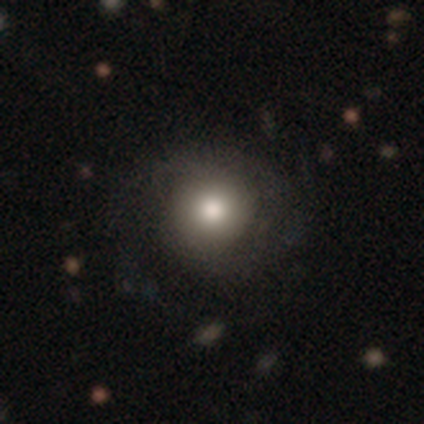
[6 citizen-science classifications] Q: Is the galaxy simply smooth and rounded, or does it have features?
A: smooth — 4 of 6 (67%).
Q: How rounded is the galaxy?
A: round — 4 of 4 (100%).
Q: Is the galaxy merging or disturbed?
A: none — 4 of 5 (80%).